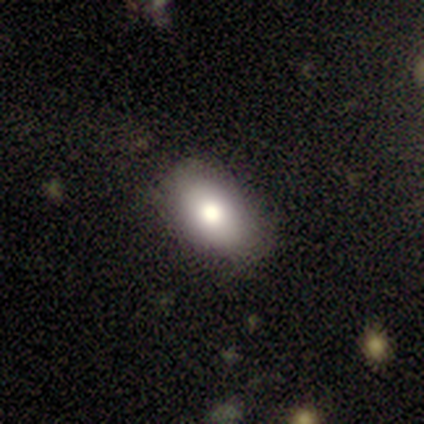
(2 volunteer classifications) This is clearly a smooth galaxy (100%). How rounded: possibly round (50%, tied with in between). Merging: clearly none (100%).